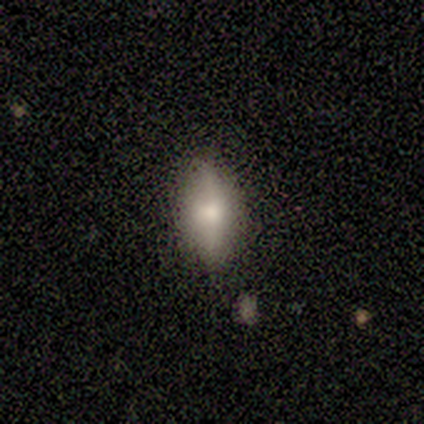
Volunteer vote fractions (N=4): smooth 75%, featured or disk 25%, star or artifact 0%. Down the decision tree: how rounded — in between (100%); merging — none (75%).